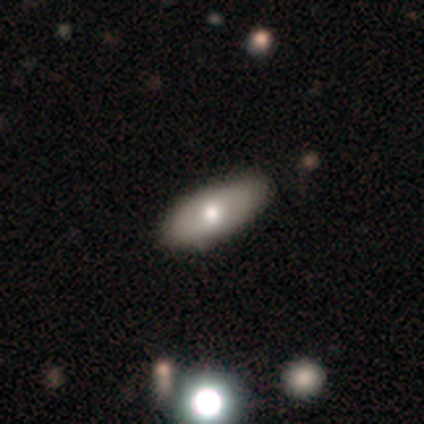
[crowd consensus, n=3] Smooth or featured?
  - smooth: 67% *
  - featured or disk: 33%
  - star or artifact: 0%
How rounded?
  - in between: 50% * (tied)
  - cigar-shaped: 50% * (tied)
  - round: 0%
Merging?
  - none: 67% *
  - minor disturbance: 33%
  - major disturbance: 0%
  - merger: 0%